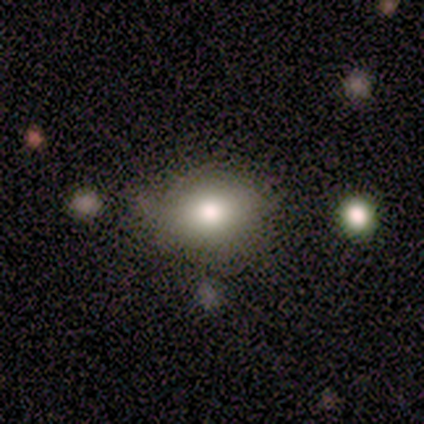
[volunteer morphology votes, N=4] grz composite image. It shows a smooth galaxy with no disk features (75%) that is in between round and cigar-shaped (67%). Merging: none (75%).